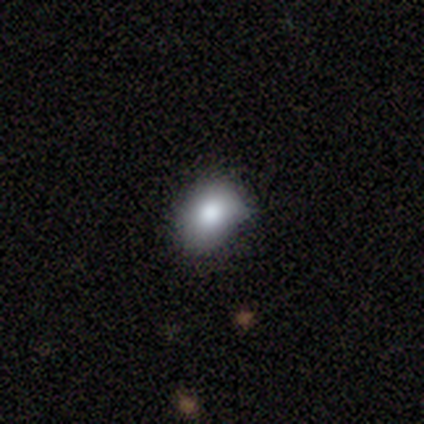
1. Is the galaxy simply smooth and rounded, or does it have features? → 75% smooth, 25% featured or disk, 0% star or artifact.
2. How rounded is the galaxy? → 67% in between, 33% round, 0% cigar-shaped.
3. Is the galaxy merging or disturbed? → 50% none (tied), 50% minor disturbance (tied), 0% major disturbance, 0% merger.